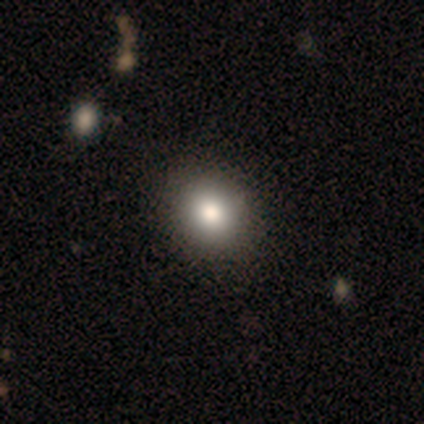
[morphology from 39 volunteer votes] A smooth galaxy with no disk features (77%) that is round (83%). Merging: none (62%).